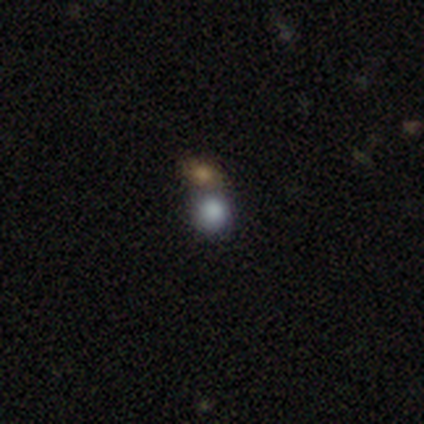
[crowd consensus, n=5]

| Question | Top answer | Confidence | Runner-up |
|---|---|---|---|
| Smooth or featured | smooth | 40% | tied: star or artifact (40%) |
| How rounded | round | 100% | — |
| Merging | none | 67% | merger (33%) |